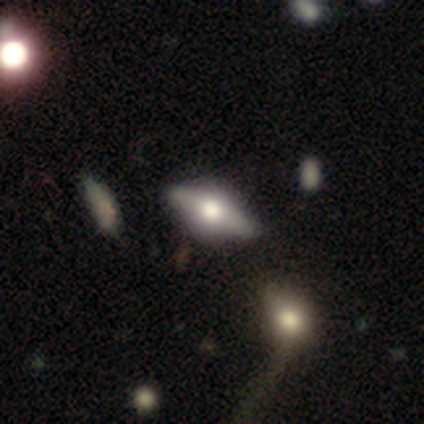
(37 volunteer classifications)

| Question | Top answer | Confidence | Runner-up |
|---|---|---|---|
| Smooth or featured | featured or disk | 59% | smooth (35%) |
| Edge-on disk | yes | 91% | no (9%) |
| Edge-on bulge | rounded | 85% | boxy (15%) |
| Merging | none | 57% | merger (9%) |